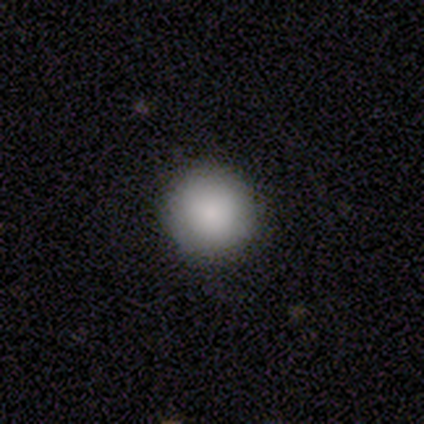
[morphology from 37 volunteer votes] A smooth galaxy with no disk features (86%) that is round (97%). Merging: none (89%).